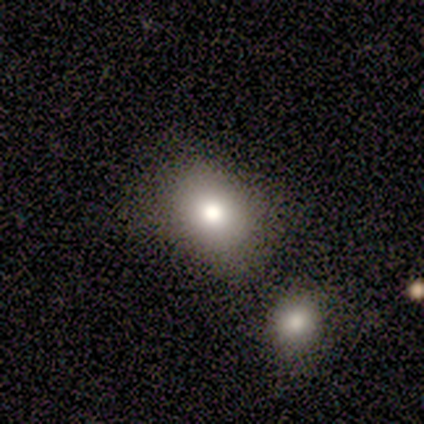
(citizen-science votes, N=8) Smooth or featured: smooth — 50% (featured or disk — 38%)
How rounded: round — 50% (tied with in between — 50%)
Merging: none — 86% (merger — 14%)